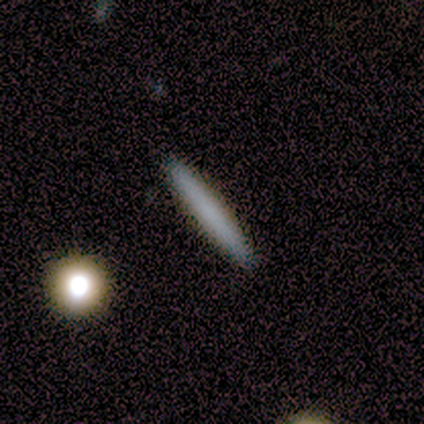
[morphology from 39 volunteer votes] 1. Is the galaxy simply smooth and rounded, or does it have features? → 79% smooth, 13% featured or disk, 8% star or artifact.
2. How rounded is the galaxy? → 100% cigar-shaped, 0% round, 0% in between.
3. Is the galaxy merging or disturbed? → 97% none, 3% minor disturbance, 0% major disturbance, 0% merger.